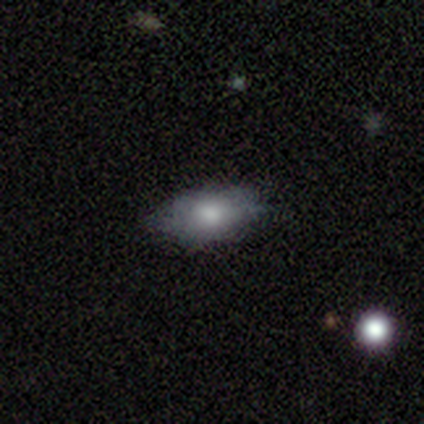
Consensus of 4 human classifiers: Volunteers were most divided on "merging": none: 75%, minor disturbance: 25%, major disturbance: 0%, merger: 0%. More confident: smooth or featured — smooth (100%); how rounded — in between (100%).